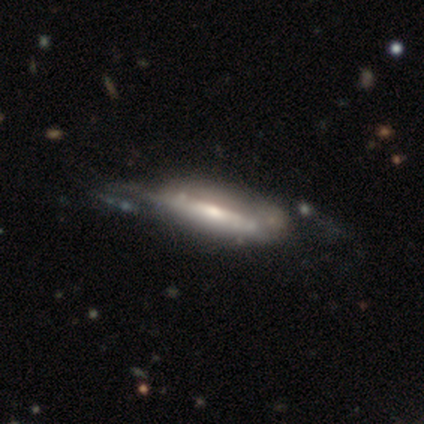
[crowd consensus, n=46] A featured or disk galaxy (83%) viewed edge-on (50%, tied with no) with a rounded central bulge (53%). Merging: none (39%).